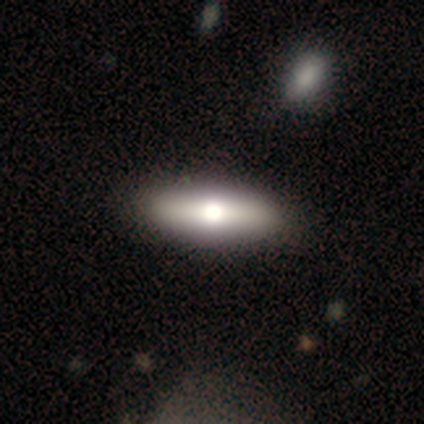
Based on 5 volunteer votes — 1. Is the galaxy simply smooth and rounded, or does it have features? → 80% smooth, 20% featured or disk, 0% star or artifact.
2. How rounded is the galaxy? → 75% in between, 25% cigar-shaped, 0% round.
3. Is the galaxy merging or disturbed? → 80% none, 20% minor disturbance, 0% major disturbance, 0% merger.